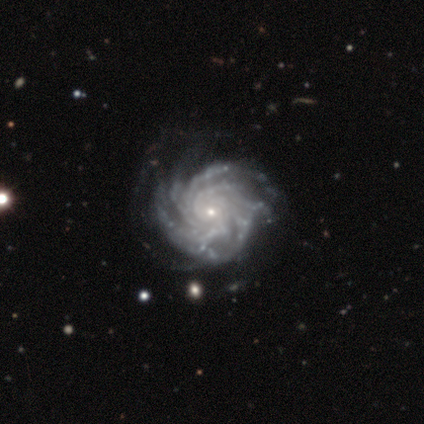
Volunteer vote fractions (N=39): This appears to be a featured or disk galaxy (100%) with no bar (84%), more than 4 (50%) tight (66%) spiral arms (100%) and a small central bulge (76%). Merging: none (41%).